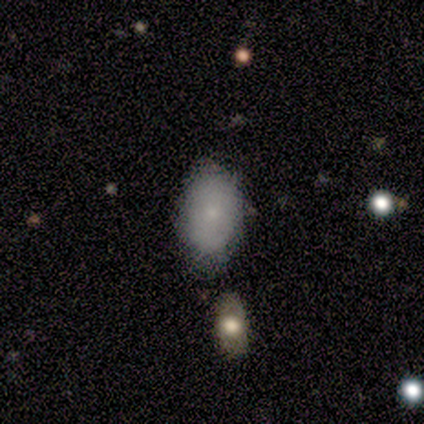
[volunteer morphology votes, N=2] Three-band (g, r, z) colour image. It shows a smooth galaxy with no disk features (50%, tied with featured or disk) that is in between round and cigar-shaped (100%). Merging: none (100%).